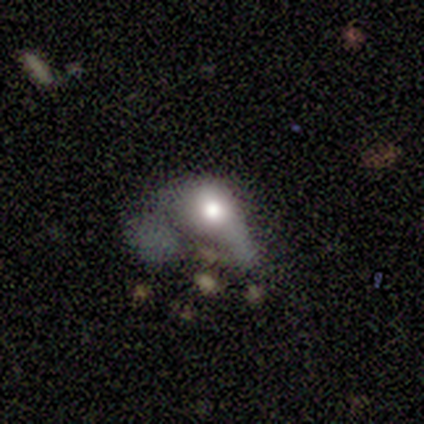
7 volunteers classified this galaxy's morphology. smooth 57%, featured or disk 43%, star or artifact 0%. Down the decision tree: how rounded — round (50%, tied with in between); merging — major disturbance (86%).